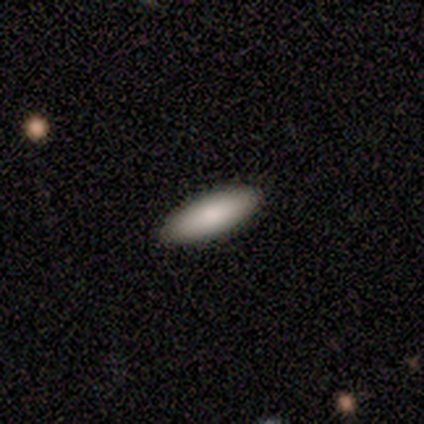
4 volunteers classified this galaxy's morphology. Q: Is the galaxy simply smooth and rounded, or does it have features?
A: smooth — 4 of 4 (100%).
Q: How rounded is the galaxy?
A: in between — 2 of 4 (50%, tied with cigar-shaped).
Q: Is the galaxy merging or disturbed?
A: none — 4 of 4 (100%).